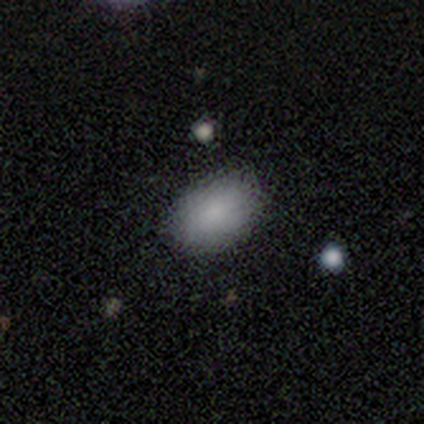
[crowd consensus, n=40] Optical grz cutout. It shows a smooth galaxy with no disk features (92%) that is in between round and cigar-shaped (89%). Merging: none (84%).